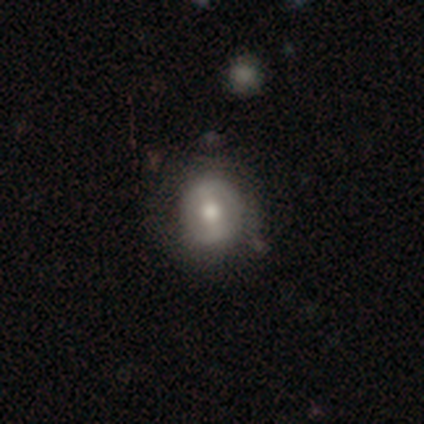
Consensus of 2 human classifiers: Smooth or featured: smooth — 100%
How rounded: round — 100%
Merging: none — 50% (tied with major disturbance — 50%)